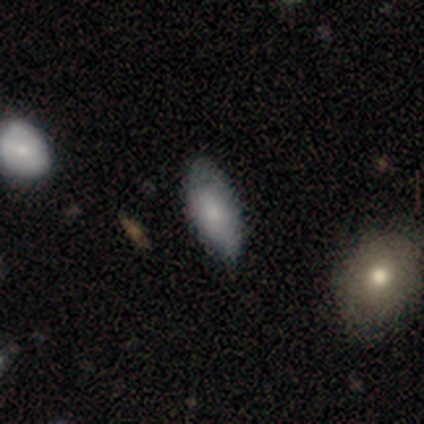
A smooth galaxy with no disk features (64%) that is in between round and cigar-shaped (89%).

Vote fractions:
- Smooth or featured? smooth: 64% / featured or disk: 29% / star or artifact: 7%
- How rounded? in between: 89% / cigar-shaped: 11% / round: 0%
- Merging? none: 62% / minor disturbance: 38% / major disturbance: 0% / merger: 0%